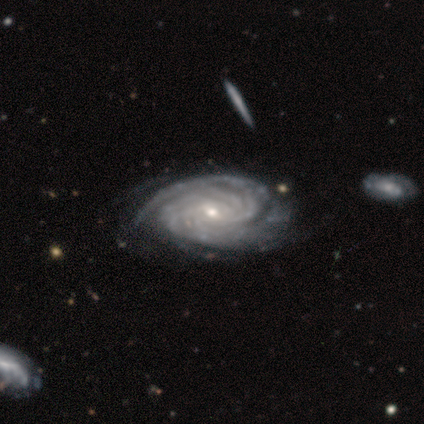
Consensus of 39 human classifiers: A featured or disk galaxy (100%) with no bar (56%), tight (77%) spiral arms (100%) and a small central bulge (62%). Merging: none (26%).